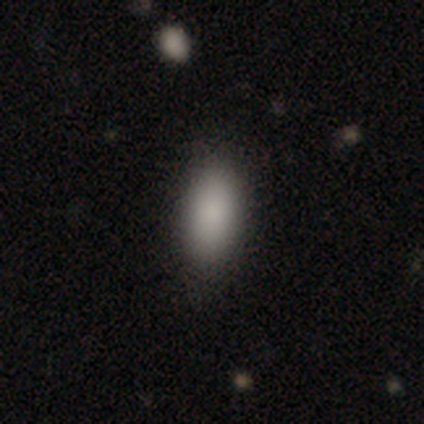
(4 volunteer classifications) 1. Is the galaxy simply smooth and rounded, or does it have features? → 75% smooth, 25% featured or disk, 0% star or artifact.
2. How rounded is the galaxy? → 100% in between, 0% round, 0% cigar-shaped.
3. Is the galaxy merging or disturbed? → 100% none, 0% minor disturbance, 0% major disturbance, 0% merger.